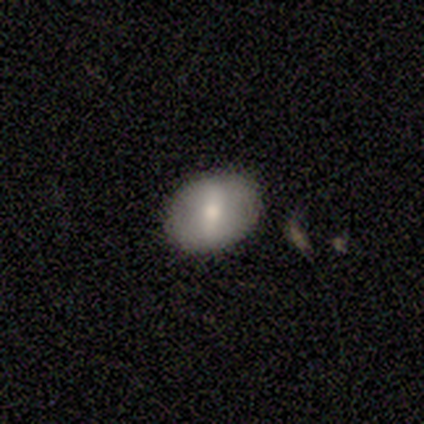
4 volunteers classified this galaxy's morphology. Q: Smooth or featured?
A: smooth (75%); runner-up: featured or disk (25%)
Q: How rounded?
A: in between (67%); runner-up: round (33%)
Q: Merging?
A: none (100%)